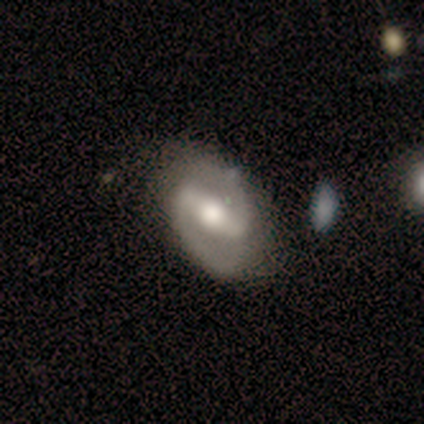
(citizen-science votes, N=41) Smooth or featured? featured or disk (88%)
Edge-on disk? no (100%)
Bar? strong (58%)
Spiral arms? yes (92%)
Spiral winding? medium (64%)
Spiral arm count? 2 (94%)
Bulge size? moderate (61%)
Merging? none (69%)